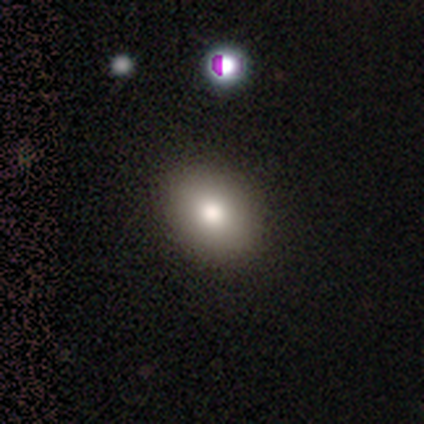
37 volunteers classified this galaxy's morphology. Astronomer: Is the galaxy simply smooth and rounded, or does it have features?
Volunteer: smooth — 84%.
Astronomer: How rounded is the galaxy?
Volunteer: in between — 81%.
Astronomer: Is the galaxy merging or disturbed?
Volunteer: none — 53%.